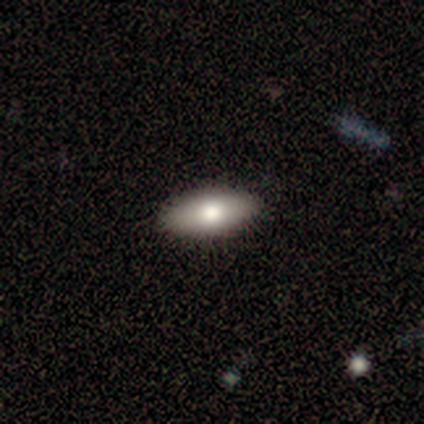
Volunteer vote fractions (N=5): Q: Smooth or featured?
A: smooth (80%); runner-up: featured or disk (20%)
Q: How rounded?
A: in between (100%)
Q: Merging?
A: none (100%)